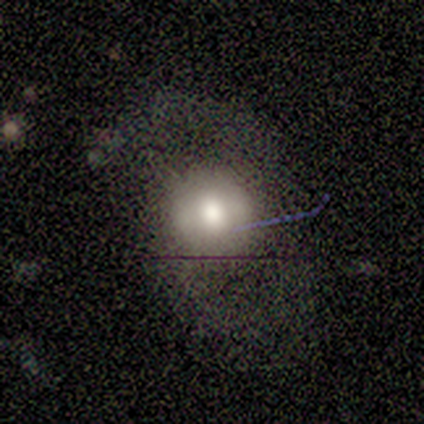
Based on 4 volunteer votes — A featured or disk galaxy (50%) with no bar (100%), 2 (100%) loose (100%) spiral arms (100%) and a large central bulge (50%, tied with moderate).

Vote fractions:
- Smooth or featured? featured or disk: 50% / smooth: 25% / star or artifact: 25%
- Edge-on disk? no: 100% / yes: 0%
- Bar? no: 100% / strong: 0% / weak: 0%
- Spiral arms? yes: 100% / no: 0%
- Spiral winding? loose: 100% / tight: 0% / medium: 0%
- Spiral arm count? 2: 100% / 1: 0% / 3: 0% / 4: 0% / more than 4: 0% / can't tell: 0%
- Bulge size? large: 50% (tied) / moderate: 50% (tied) / dominant: 0% / small: 0% / none: 0%
- Merging? none: 33% (tied) / minor disturbance: 33% (tied) / major disturbance: 33% (tied) / merger: 0%